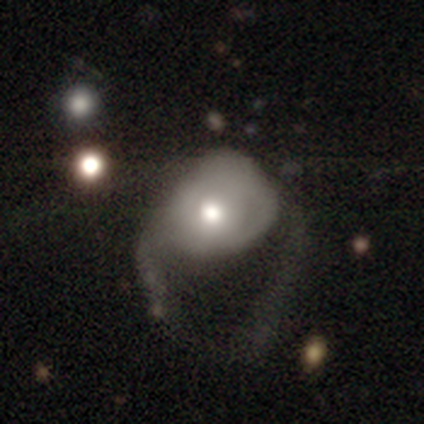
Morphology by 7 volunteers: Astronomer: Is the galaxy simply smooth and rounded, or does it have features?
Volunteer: featured or disk — 43% (runner-up: smooth, 29%).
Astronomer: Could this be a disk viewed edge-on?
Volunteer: no — 100%.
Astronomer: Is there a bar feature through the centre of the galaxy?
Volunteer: no — 100%.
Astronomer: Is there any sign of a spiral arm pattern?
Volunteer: no — 100%.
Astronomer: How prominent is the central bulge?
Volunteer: moderate — 67%.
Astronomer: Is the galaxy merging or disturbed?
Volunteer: major disturbance — 100%.